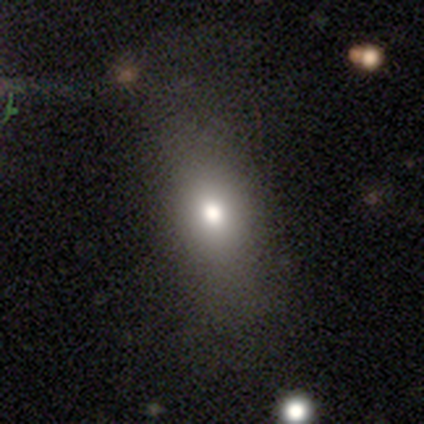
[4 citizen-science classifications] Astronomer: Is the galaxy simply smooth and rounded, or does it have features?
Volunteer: smooth — 75%.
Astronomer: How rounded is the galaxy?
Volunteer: in between — 67%.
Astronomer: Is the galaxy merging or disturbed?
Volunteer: none — 67%.